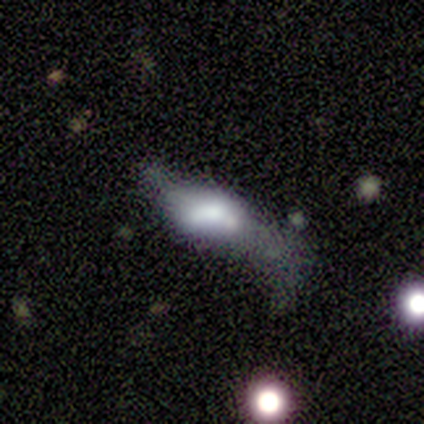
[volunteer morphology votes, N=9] This is possibly a featured or disk galaxy (56%). It is clearly not viewed edge-on (100%). Bar: clearly no (80%). Spiral arm pattern: clearly no (80%). Central bulge: marginally moderate (40%, tied with none). Merging: likely major disturbance (67%).